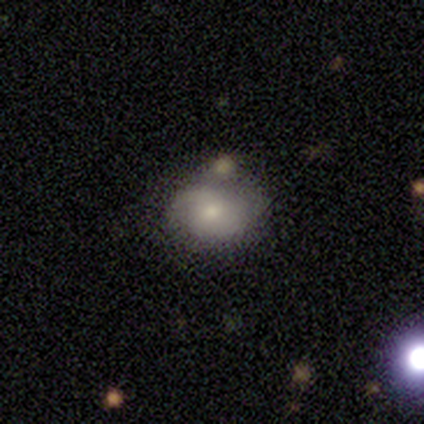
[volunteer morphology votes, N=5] smooth 80%, featured or disk 20%, star or artifact 0%. Down the decision tree: how rounded — in between (75%); merging — minor disturbance (60%).